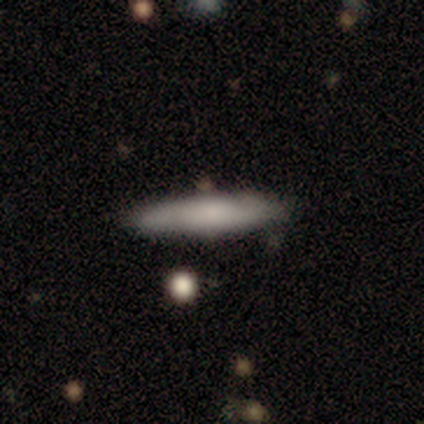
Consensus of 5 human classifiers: Smooth or featured? featured or disk (60%)
Edge-on disk? yes (100%)
Edge-on bulge? rounded (67%)
Merging? none (80%)